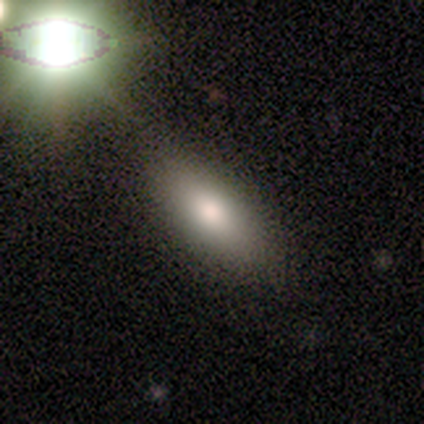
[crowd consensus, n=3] Smooth or featured?
  - smooth: 33% * (tied)
  - featured or disk: 33% * (tied)
  - star or artifact: 33% * (tied)
How rounded?
  - in between: 100% *
  - round: 0%
  - cigar-shaped: 0%
Merging?
  - none: 50% * (tied)
  - merger: 50% * (tied)
  - minor disturbance: 0%
  - major disturbance: 0%